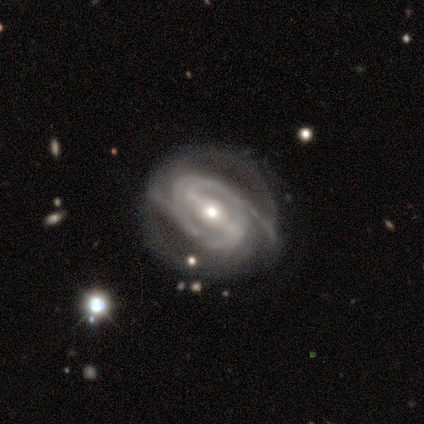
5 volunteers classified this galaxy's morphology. This appears to be a featured or disk galaxy (100%) with a strong bar (50%, tied with weak), 2 (67%) medium (67%) spiral arms (75%) and a moderate central bulge (50%, tied with small). Merging: none (60%).